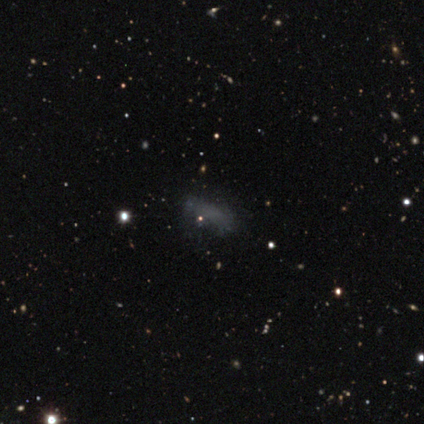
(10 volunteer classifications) Smooth or featured? smooth (70%)
How rounded? in between (100%)
Merging? none (78%)